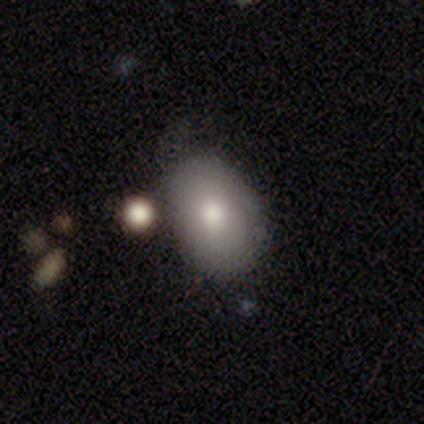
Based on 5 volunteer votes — smooth-or-featured: smooth: 80% | featured or disk: 20% | star or artifact: 0%
  how-rounded: in between: 100% | round: 0% | cigar-shaped: 0%
  merging: none: 60% | merger: 40% | minor disturbance: 0% | major disturbance: 0%